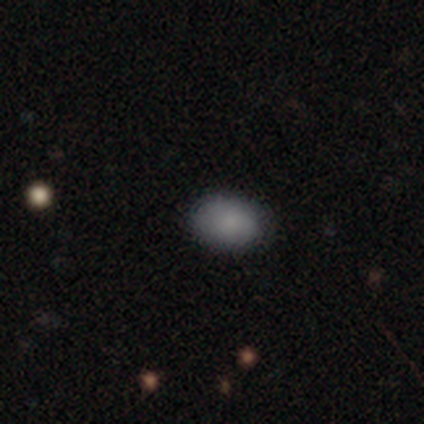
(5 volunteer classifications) Volunteers were most divided on "merging": none: 60%, minor disturbance: 40%, major disturbance: 0%, merger: 0%. More confident: how rounded — in between (100%); smooth or featured — smooth (80%).